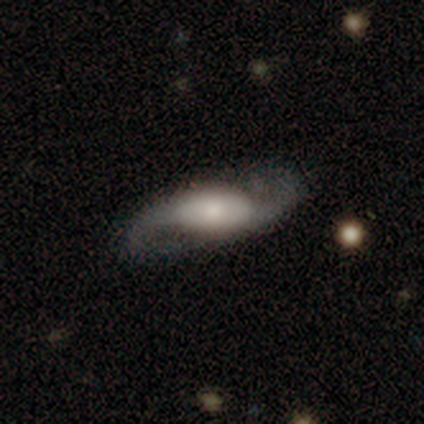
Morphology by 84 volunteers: smooth_or_featured: featured or disk (p=0.81) [alt: smooth p=0.13]
disk_edge_on: no (p=0.90) [alt: yes p=0.10]
bar: no (p=0.56) [alt: weak p=0.23]
has_spiral_arms: yes (p=0.92) [alt: no p=0.08]
spiral_winding: loose (p=0.71) [alt: medium p=0.21]
spiral_arm_count: 2 (p=0.96) [alt: 1 p=0.04]
bulge_size: small (p=0.43) [alt: moderate p=0.33]
merging: none (p=0.73) [alt: minor disturbance p=0.13]